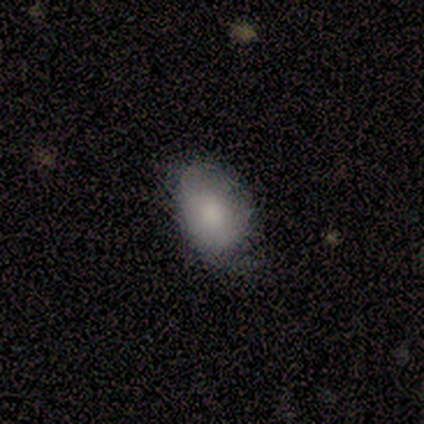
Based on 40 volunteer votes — Volunteers were most divided on "merging": none: 59%, minor disturbance: 38%, major disturbance: 3%, merger: 0%. More confident: how rounded — in between (79%); smooth or featured — smooth (70%).